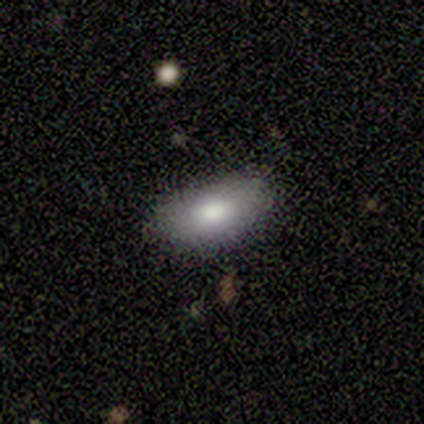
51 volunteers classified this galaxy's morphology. Smooth or featured? 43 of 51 (84%) said smooth. How rounded? 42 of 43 (98%) said in between. Merging? 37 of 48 (77%) said none.